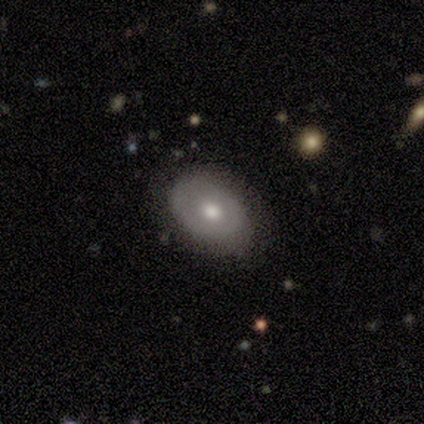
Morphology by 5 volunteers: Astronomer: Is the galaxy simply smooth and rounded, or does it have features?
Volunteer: smooth — 60% (runner-up: featured or disk, 40%).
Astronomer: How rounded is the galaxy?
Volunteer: in between — 100%.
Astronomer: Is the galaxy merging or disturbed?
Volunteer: none — 60% (runner-up: minor disturbance, 40%).